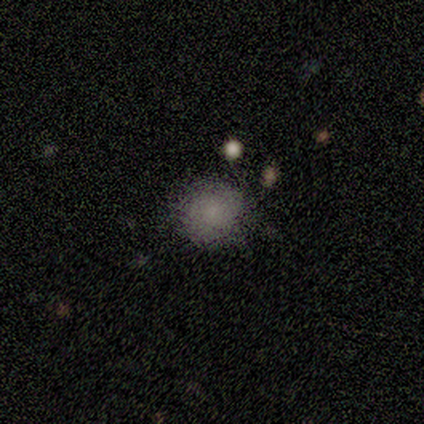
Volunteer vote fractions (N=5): Smooth or featured: smooth — 80% (star or artifact — 20%)
How rounded: round — 75% (in between — 25%)
Merging: none — 75% (minor disturbance — 25%)